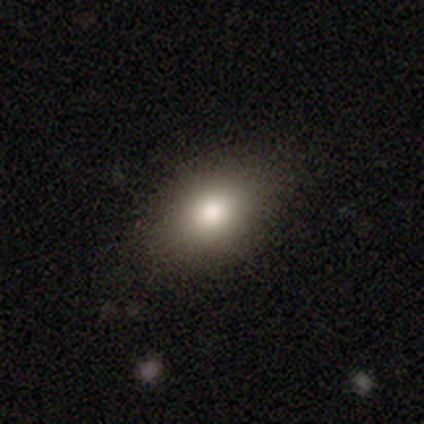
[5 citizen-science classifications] Morphology: type=smooth (80%); roundness=in between (100%); merging=none (100%).